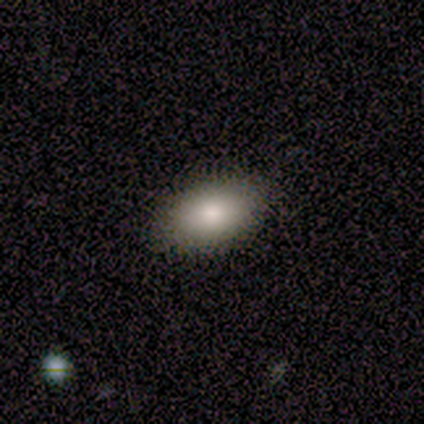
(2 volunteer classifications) A smooth galaxy with no disk features (50%, tied with featured or disk) that is in between round and cigar-shaped (100%).

Vote fractions:
- Smooth or featured? smooth: 50% (tied) / featured or disk: 50% (tied) / star or artifact: 0%
- How rounded? in between: 100% / round: 0% / cigar-shaped: 0%
- Merging? none: 100% / minor disturbance: 0% / major disturbance: 0% / merger: 0%